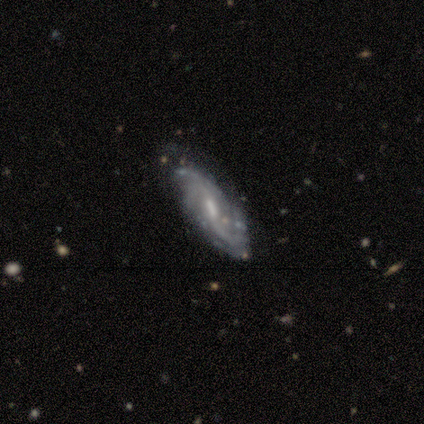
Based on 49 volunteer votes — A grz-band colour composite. It shows a featured or disk galaxy (92%) with a weak bar (64%), 2 (50%) loose (43%) spiral arms (100%) and a moderate central bulge (52%). Merging: none (64%).